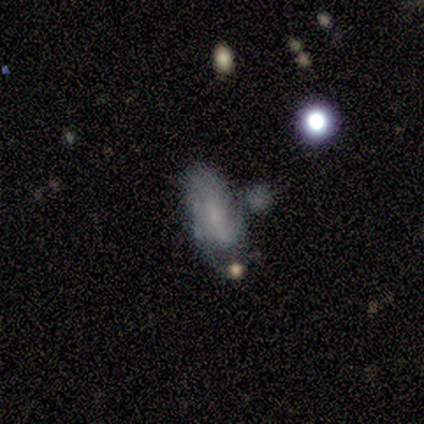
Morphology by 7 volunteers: A smooth galaxy with no disk features (57%) that is in between round and cigar-shaped (100%). Merging: none (33%, tied with minor disturbance and major disturbance).